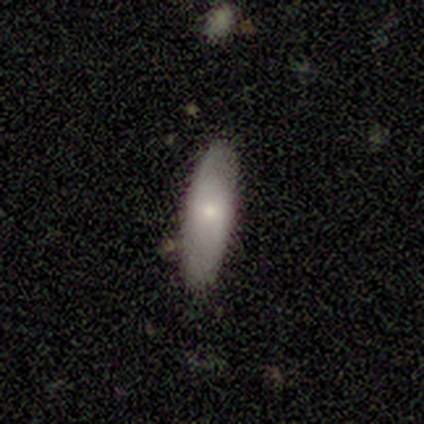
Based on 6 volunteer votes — Smooth or featured? smooth (83%)
How rounded? cigar-shaped (60%)
Merging? none (100%)